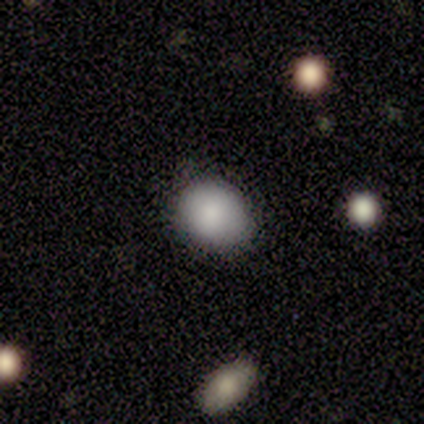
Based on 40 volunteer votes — Overall: smooth (85%). How rounded: round (68%; in between 32%). Merging: none (76%).